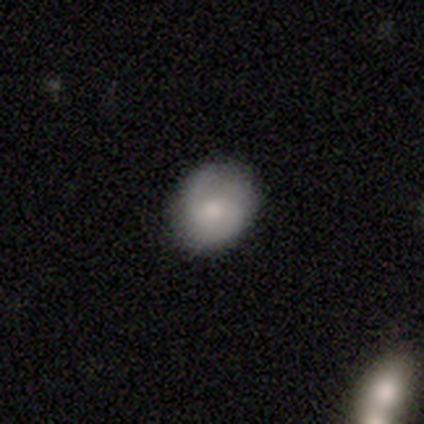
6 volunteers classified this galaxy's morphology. Smooth or featured?
  - smooth: 83% *
  - featured or disk: 17%
  - star or artifact: 0%
How rounded?
  - round: 60% *
  - in between: 40%
  - cigar-shaped: 0%
Merging?
  - none: 67% *
  - minor disturbance: 33%
  - major disturbance: 0%
  - merger: 0%